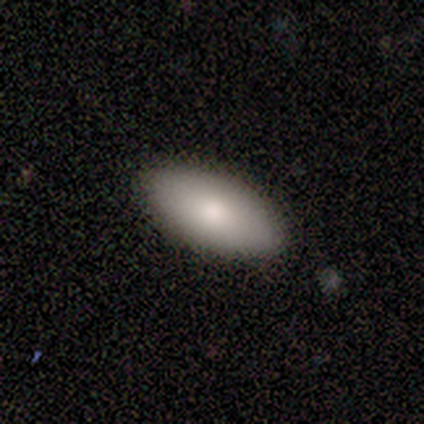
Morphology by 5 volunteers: A smooth galaxy with no disk features (100%) that is in between round and cigar-shaped (100%). Merging: none (100%).